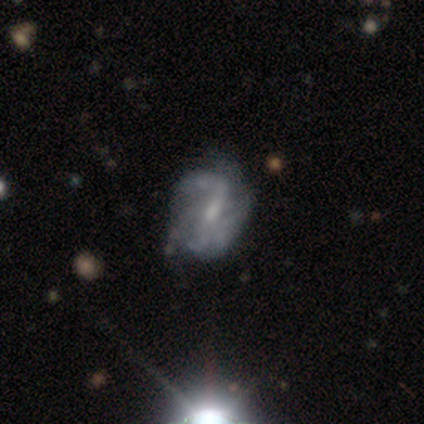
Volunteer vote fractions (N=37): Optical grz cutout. It shows a featured or disk galaxy (78%) with a weak bar (66%), medium (42%) spiral arms (90%) and a small central bulge (55%). Merging: none (59%).